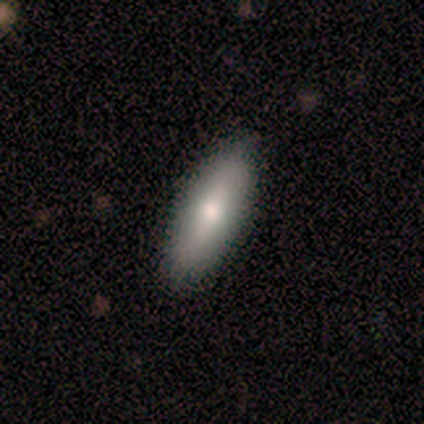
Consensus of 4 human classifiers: Smooth or featured? 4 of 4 (100%) said smooth. How rounded? 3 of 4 (75%) said in between. Merging? 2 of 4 (50%, tied with minor disturbance) said none.